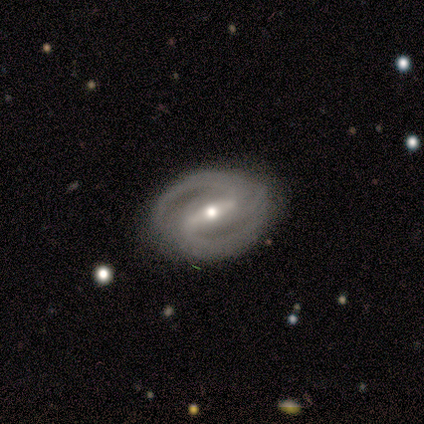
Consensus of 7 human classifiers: smooth_or_featured: featured or disk (p=0.86) [alt: star or artifact p=0.14]
disk_edge_on: no (p=1.00)
bar: weak (p=0.67) [alt: strong p=0.33]
has_spiral_arms: yes (p=1.00)
spiral_winding: medium (p=0.67) [alt: tight p=0.17]
spiral_arm_count: 2 (p=1.00)
bulge_size: small (p=0.83) [alt: moderate p=0.17]
merging: none (p=0.83) [alt: minor disturbance p=0.17]